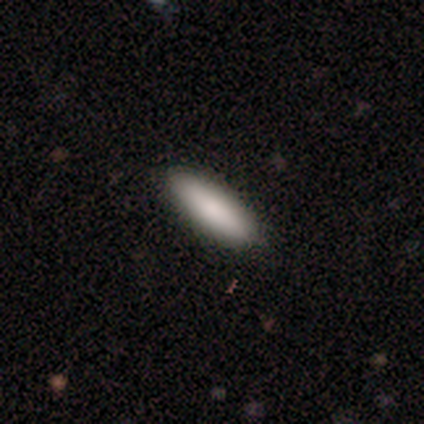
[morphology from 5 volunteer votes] smooth-or-featured: smooth: 80% | star or artifact: 20% | featured or disk: 0%
  how-rounded: cigar-shaped: 75% | in between: 25% | round: 0%
  merging: none: 100% | minor disturbance: 0% | major disturbance: 0% | merger: 0%